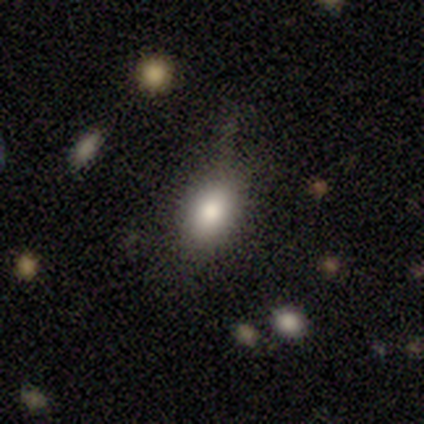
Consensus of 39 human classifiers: Smooth or featured: smooth — 77% (featured or disk — 13%)
How rounded: in between — 87% (round — 13%)
Merging: none — 63% (minor disturbance — 31%)